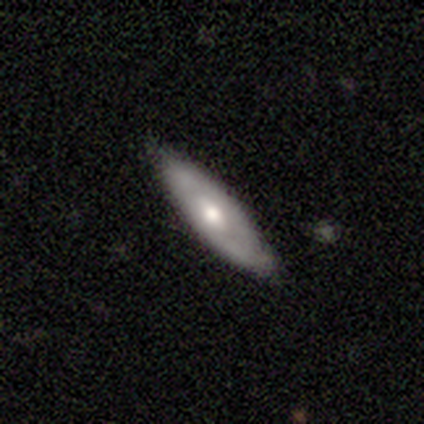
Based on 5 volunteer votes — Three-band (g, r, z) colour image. It shows a featured or disk galaxy (100%) viewed edge-on (80%) with a rounded central bulge (100%). Merging: none (60%).